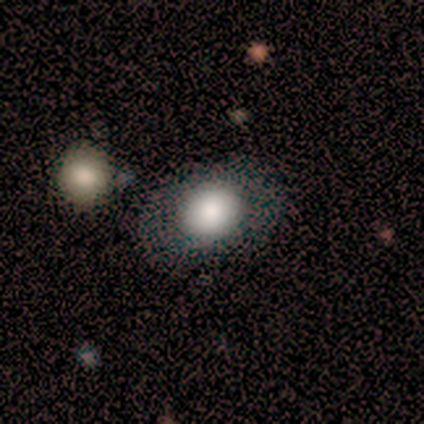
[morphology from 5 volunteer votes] A featured or disk galaxy (60%) with no bar (100%), no spiral arms (100%) and a large central bulge (67%).

Vote fractions:
- Smooth or featured? featured or disk: 60% / smooth: 40% / star or artifact: 0%
- Edge-on disk? no: 100% / yes: 0%
- Bar? no: 100% / strong: 0% / weak: 0%
- Spiral arms? no: 100% / yes: 0%
- Bulge size? large: 67% / dominant: 33% / moderate: 0% / small: 0% / none: 0%
- Merging? merger: 60% / none: 20% / minor disturbance: 20% / major disturbance: 0%